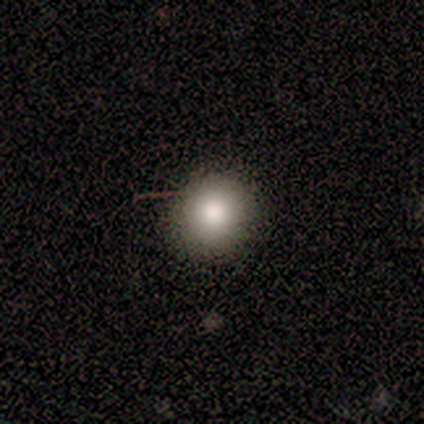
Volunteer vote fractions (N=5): smooth-or-featured: smooth: 80% | star or artifact: 20% | featured or disk: 0%
  how-rounded: round: 75% | in between: 25% | cigar-shaped: 0%
  merging: none: 75% | minor disturbance: 25% | major disturbance: 0% | merger: 0%